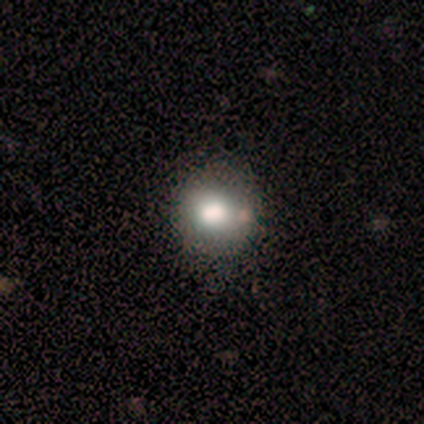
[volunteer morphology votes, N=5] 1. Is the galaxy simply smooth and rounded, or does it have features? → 40% smooth (tied), 40% star or artifact (tied), 20% featured or disk.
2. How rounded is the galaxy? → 100% round, 0% in between, 0% cigar-shaped.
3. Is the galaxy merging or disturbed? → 100% none, 0% minor disturbance, 0% major disturbance, 0% merger.